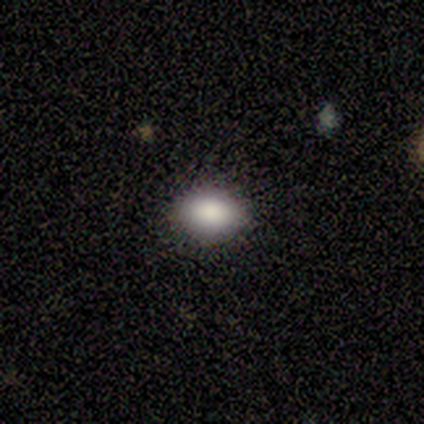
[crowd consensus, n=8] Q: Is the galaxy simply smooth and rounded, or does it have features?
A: smooth — 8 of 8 (100%).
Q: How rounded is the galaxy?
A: round — 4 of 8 (50%, tied with in between).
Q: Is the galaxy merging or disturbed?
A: none — 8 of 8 (100%).